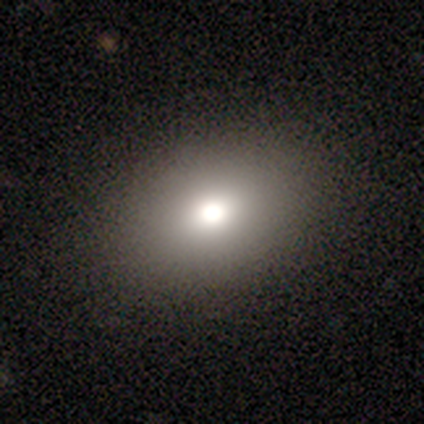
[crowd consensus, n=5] Smooth or featured?
  - smooth: 40% * (tied)
  - featured or disk: 40% * (tied)
  - star or artifact: 20%
How rounded?
  - round: 50% * (tied)
  - in between: 50% * (tied)
  - cigar-shaped: 0%
Merging?
  - none: 75% *
  - major disturbance: 25%
  - minor disturbance: 0%
  - merger: 0%